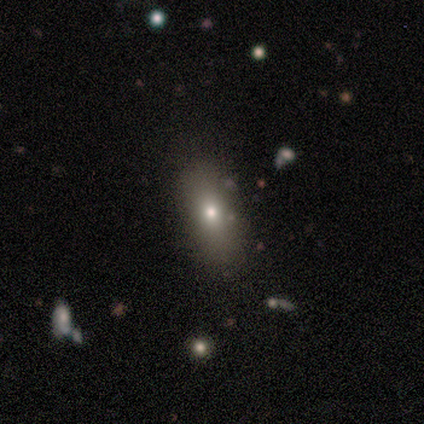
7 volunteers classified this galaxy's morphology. This is possibly a smooth galaxy (57%). How rounded: clearly in between (100%). Merging: clearly none (86%).